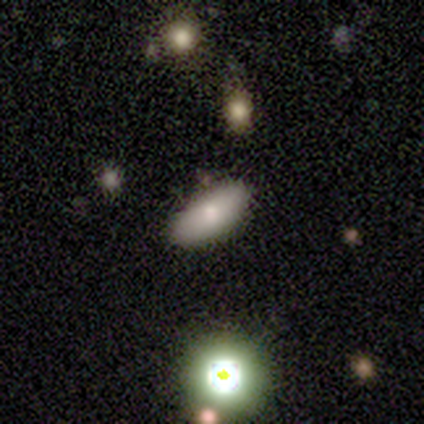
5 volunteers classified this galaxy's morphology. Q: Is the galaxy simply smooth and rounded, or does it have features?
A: smooth — 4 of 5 (80%).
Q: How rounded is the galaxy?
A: in between — 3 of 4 (75%).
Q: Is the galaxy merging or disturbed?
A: none — 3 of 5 (60%).